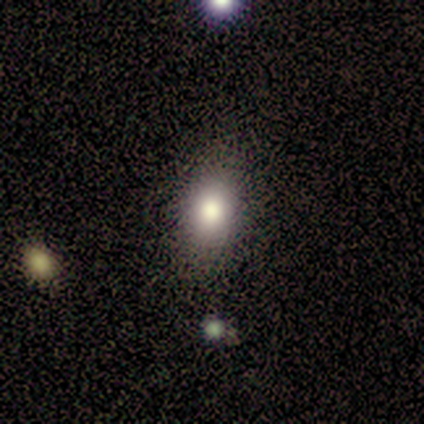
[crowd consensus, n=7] Morphology: type=smooth (86%); roundness=in between (50%); merging=none (86%).